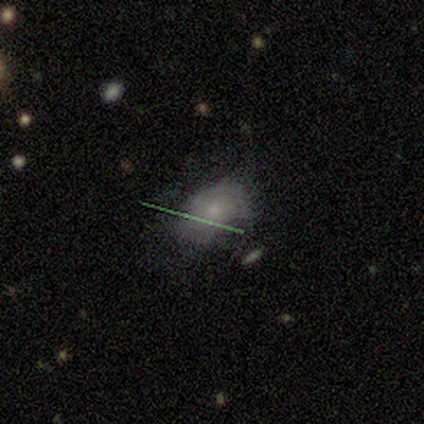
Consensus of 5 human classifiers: Smooth or featured? smooth (40%, tied with star or artifact)
How rounded? round (50%, tied with in between)
Merging? none (33%, tied with minor disturbance and major disturbance)